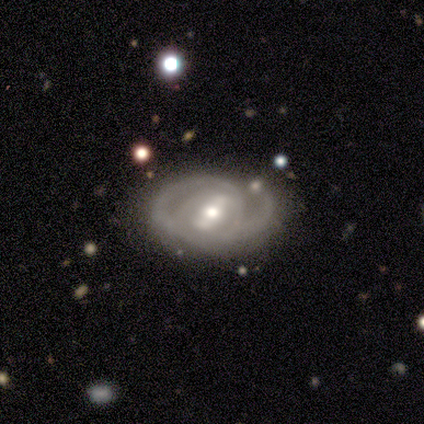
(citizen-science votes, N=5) Smooth or featured: featured or disk — 100%
Edge-on disk: no — 100%
Bar: strong — 80% (weak — 20%)
Spiral arms: yes — 100%
Spiral winding: medium — 60% (tight — 40%)
Spiral arm count: 2 — 40% (tied with can't tell — 40%)
Bulge size: moderate — 80% (small — 20%)
Merging: none — 40% (tied with minor disturbance — 40%)